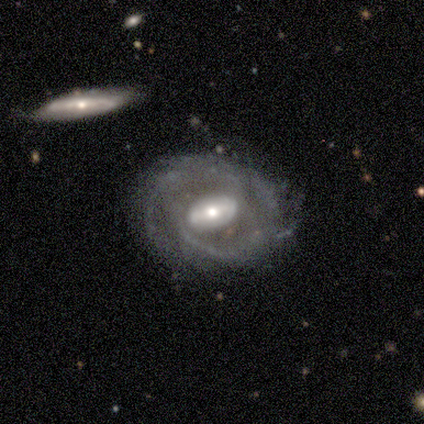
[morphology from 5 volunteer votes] Smooth or featured? featured or disk (80%)
Edge-on disk? no (75%)
Bar? strong (33%, tied with weak and no)
Spiral arms? yes (100%)
Spiral winding? tight (67%)
Spiral arm count? can't tell (67%)
Bulge size? moderate (67%)
Merging? none (75%)